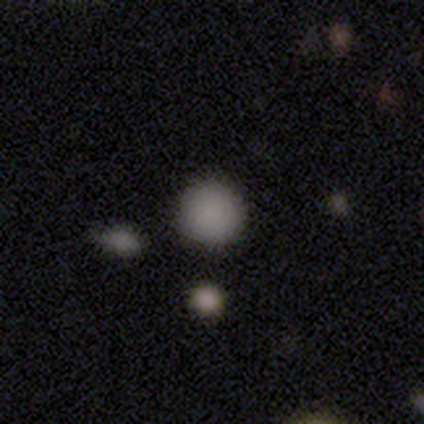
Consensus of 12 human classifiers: smooth_or_featured: smooth (p=0.92) [alt: star or artifact p=0.08]
how_rounded: round (p=1.00)
merging: none (p=1.00)